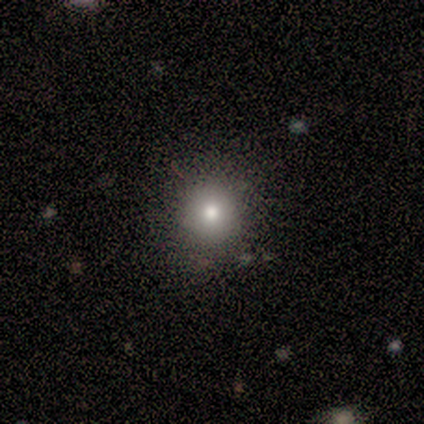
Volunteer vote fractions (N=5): This is clearly a smooth galaxy (80%). How rounded: clearly round (100%). Merging: clearly none (100%).